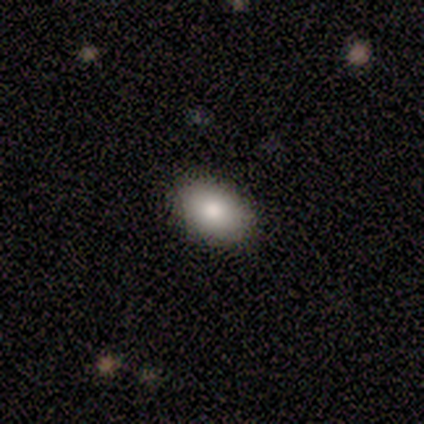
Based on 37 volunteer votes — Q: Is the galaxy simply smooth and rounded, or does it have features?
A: smooth — 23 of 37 (62%).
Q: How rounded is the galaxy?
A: in between — 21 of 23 (91%).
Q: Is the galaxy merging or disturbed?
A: none — 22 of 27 (81%).